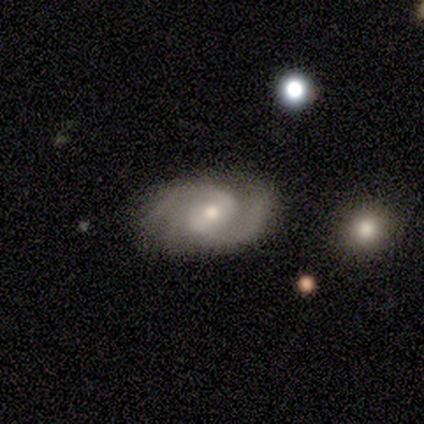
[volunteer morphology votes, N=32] type=featured or disk (88%); edge-on=no (96%); bar=weak (52%); spiral arms=yes (93%); winding=medium (64%); arm count=2 (100%); bulge=moderate (44%); merging=none (69%).